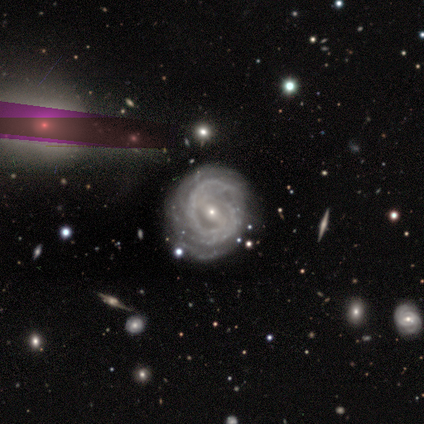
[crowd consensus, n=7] featured or disk 86%, smooth 14%, star or artifact 0%. Down the decision tree: edge-on disk — no (100%); bar — weak (50%); spiral arms — yes (100%); spiral arm count — can't tell (83%); spiral winding — tight (83%); bulge size — small (83%); merging — none (71%).